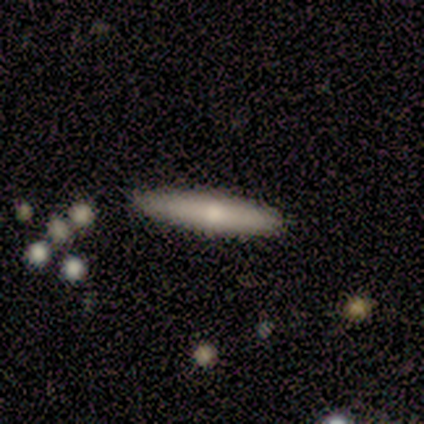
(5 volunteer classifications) smooth 40% (tied), featured or disk 40% (tied), star or artifact 20%. Down the decision tree: how rounded — cigar-shaped (100%); merging — none (100%).